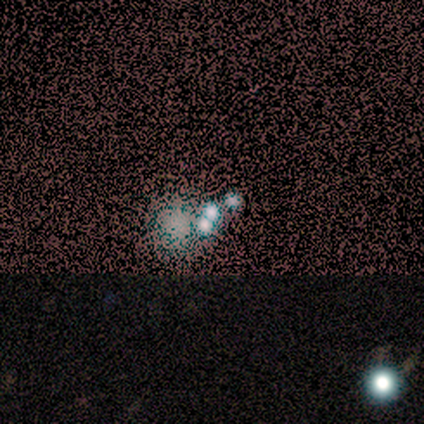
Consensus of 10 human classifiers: A featured or disk galaxy (40%) with no bar (100%), no spiral arms (100%) and a small central bulge (50%, tied with none). Merging: merger (43%).